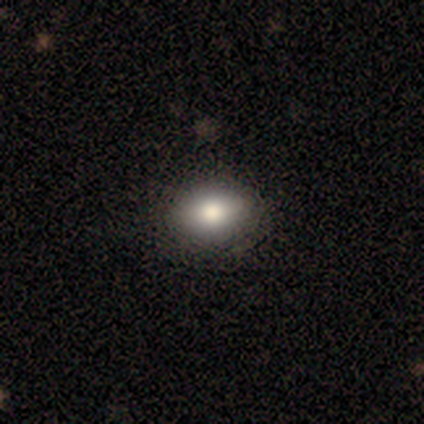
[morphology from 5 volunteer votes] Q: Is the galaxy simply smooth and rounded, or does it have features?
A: smooth — 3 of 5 (60%).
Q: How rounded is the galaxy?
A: in between — 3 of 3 (100%).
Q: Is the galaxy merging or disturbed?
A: none — 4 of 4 (100%).